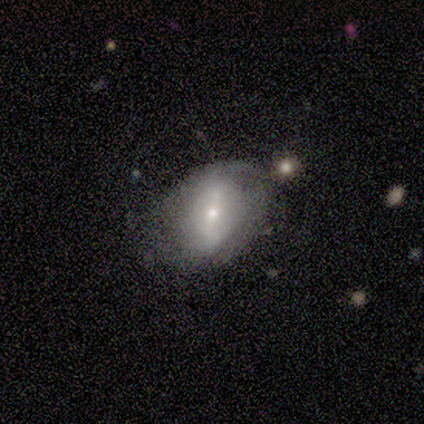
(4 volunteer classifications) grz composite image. It shows a smooth galaxy with no disk features (75%) that is in between round and cigar-shaped (100%). Merging: none (75%).